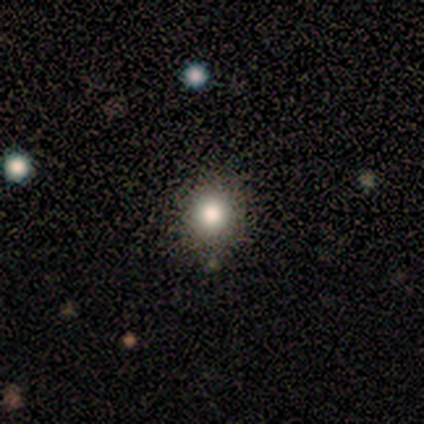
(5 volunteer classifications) A smooth galaxy with no disk features (80%) that is round (75%). Merging: none (100%).